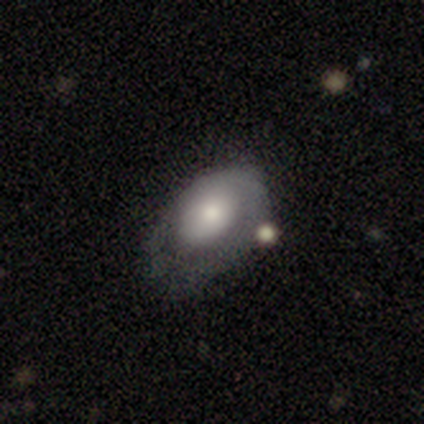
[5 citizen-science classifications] Overall: smooth (60%; featured or disk 40%). How rounded: in between (100%). Merging: none (80%).